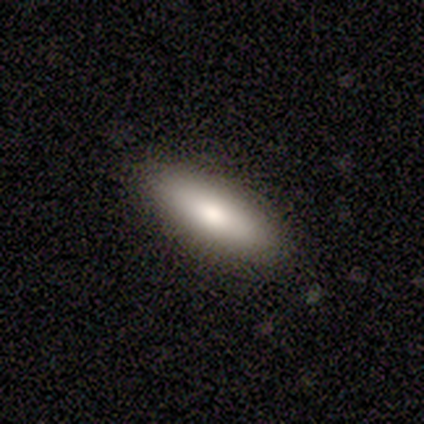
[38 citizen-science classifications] Volunteers were most divided on "how rounded": in between: 53%, cigar-shaped: 47%, round: 0%. More confident: merging — none (92%); smooth or featured — smooth (84%).